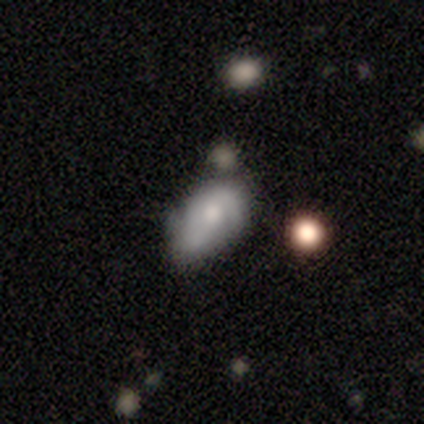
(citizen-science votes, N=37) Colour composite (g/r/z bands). It shows a featured or disk galaxy (51%) with no bar (95%), 2 (42%) tight (58%) spiral arms (63%) and a small central bulge (53%). Merging: none (40%).